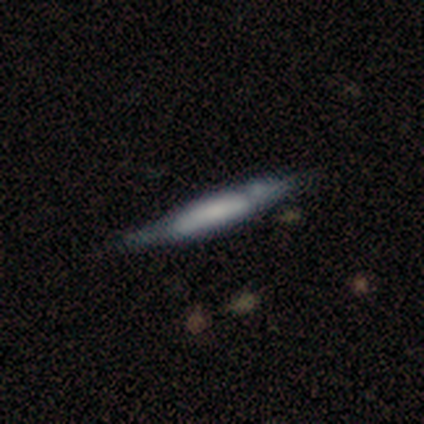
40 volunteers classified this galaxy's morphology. Volunteers were most divided on "edge-on bulge": none: 41%, boxy: 35%, rounded: 24%. More confident: edge-on disk — yes (81%); merging — none (67%); smooth or featured — featured or disk (52%).